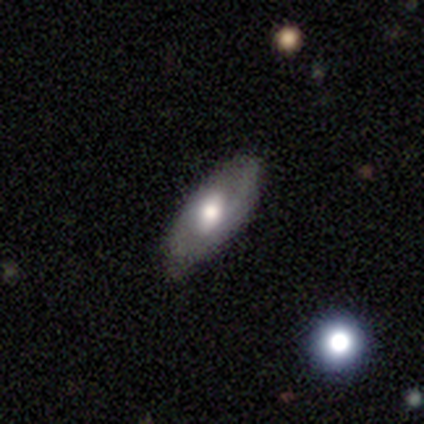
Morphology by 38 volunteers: Smooth or featured? featured or disk (55%)
Edge-on disk? no (76%)
Bar? no (69%)
Spiral arms? yes (62%)
Spiral winding? medium (50%)
Spiral arm count? can't tell (50%)
Bulge size? moderate (69%)
Merging? none (85%)